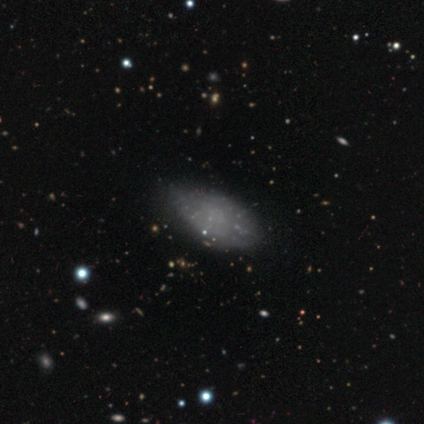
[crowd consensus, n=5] A smooth galaxy with no disk features (80%) that is in between round and cigar-shaped (100%). Merging: none (60%).